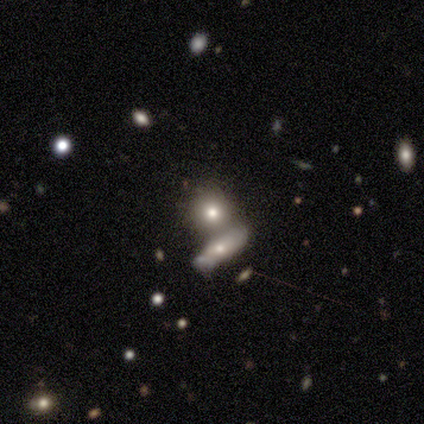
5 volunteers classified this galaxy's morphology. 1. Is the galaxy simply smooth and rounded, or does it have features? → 100% smooth, 0% featured or disk, 0% star or artifact.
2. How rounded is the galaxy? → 40% round (tied), 40% in between (tied), 20% cigar-shaped.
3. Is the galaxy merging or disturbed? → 40% none (tied), 40% merger (tied), 20% minor disturbance, 0% major disturbance.